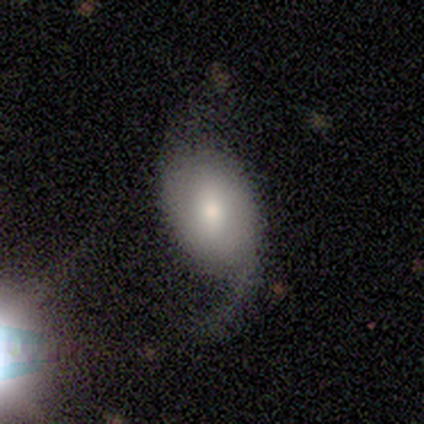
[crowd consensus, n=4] Smooth or featured? smooth (50%, tied with featured or disk)
How rounded? in between (100%)
Merging? none (50%, tied with major disturbance)